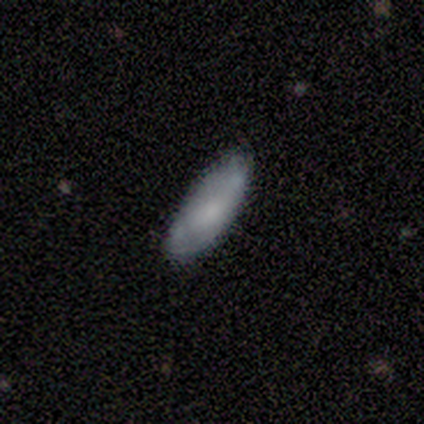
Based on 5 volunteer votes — Q: Smooth or featured?
A: smooth (80%); runner-up: featured or disk (20%)
Q: How rounded?
A: in between (50%); tied with: cigar-shaped (50%)
Q: Merging?
A: none (100%)